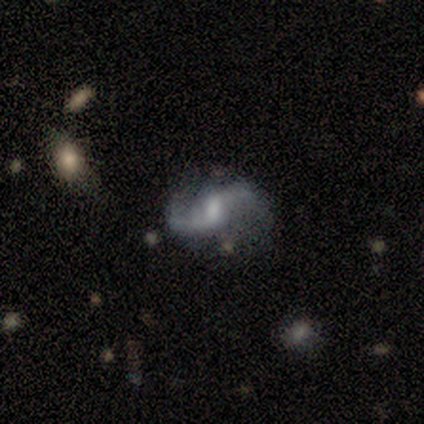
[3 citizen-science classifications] A featured or disk galaxy (100%) with a weak bar (67%), 2 (100%) loose (100%) spiral arms (100%) and a moderate central bulge (67%).

Vote fractions:
- Smooth or featured? featured or disk: 100% / smooth: 0% / star or artifact: 0%
- Edge-on disk? no: 100% / yes: 0%
- Bar? weak: 67% / strong: 33% / no: 0%
- Spiral arms? yes: 100% / no: 0%
- Spiral winding? loose: 100% / tight: 0% / medium: 0%
- Spiral arm count? 2: 100% / 1: 0% / 3: 0% / 4: 0% / more than 4: 0% / can't tell: 0%
- Bulge size? moderate: 67% / dominant: 33% / large: 0% / small: 0% / none: 0%
- Merging? none: 100% / minor disturbance: 0% / major disturbance: 0% / merger: 0%